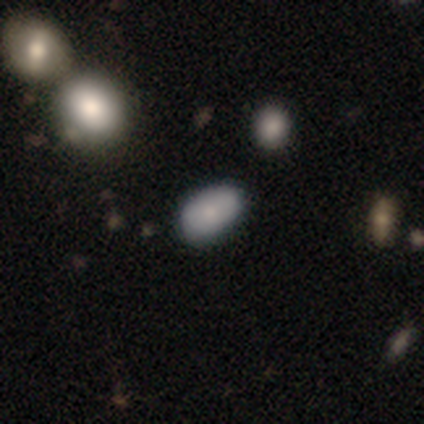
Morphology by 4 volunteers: This is likely a smooth galaxy (75%). How rounded: clearly in between (100%). Merging: likely none (75%).